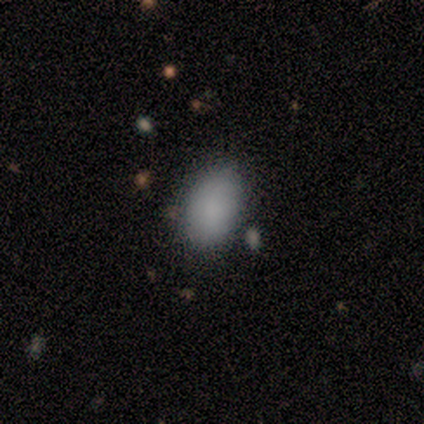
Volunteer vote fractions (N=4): This appears to be a smooth galaxy with no disk features (100%) that is in between round and cigar-shaped (100%). Merging: none (75%).